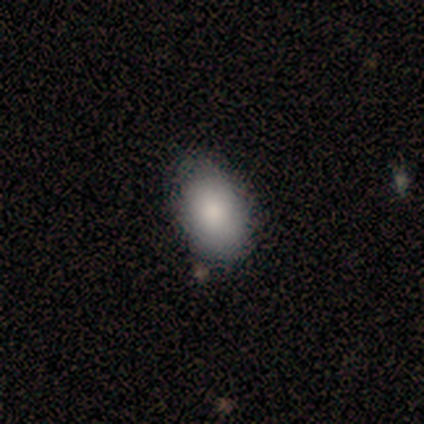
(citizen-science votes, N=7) Q: Smooth or featured?
A: smooth (86%); runner-up: featured or disk (14%)
Q: How rounded?
A: in between (100%)
Q: Merging?
A: none (86%); runner-up: minor disturbance (14%)